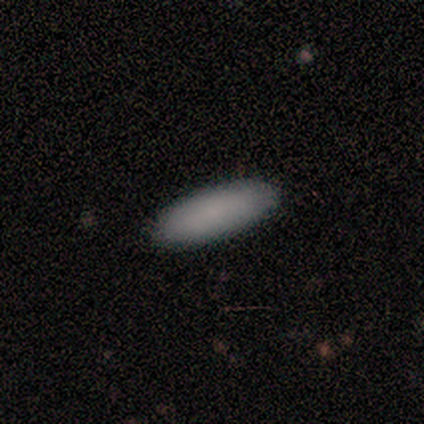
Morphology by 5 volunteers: Q: Smooth or featured?
A: smooth (100%)
Q: How rounded?
A: in between (80%); runner-up: cigar-shaped (20%)
Q: Merging?
A: none (100%)